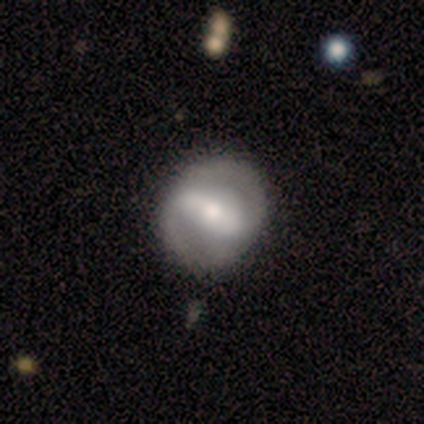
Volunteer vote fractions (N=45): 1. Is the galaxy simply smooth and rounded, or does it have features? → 69% featured or disk, 31% smooth, 0% star or artifact.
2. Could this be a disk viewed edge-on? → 94% no, 6% yes.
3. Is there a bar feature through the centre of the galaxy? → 72% strong, 24% weak, 3% no.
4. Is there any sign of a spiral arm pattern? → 93% yes, 7% no.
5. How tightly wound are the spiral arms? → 70% medium, 22% tight, 7% loose.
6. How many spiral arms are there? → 89% 2, 7% can't tell, 4% 1, 0% 3, 0% 4, 0% more than 4.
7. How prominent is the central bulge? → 52% moderate, 28% small, 21% large, 0% dominant, 0% none.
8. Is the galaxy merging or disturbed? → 78% none, 16% minor disturbance, 4% major disturbance, 2% merger.